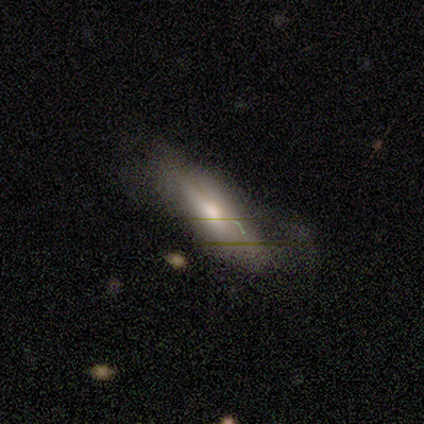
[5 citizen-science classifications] A smooth galaxy with no disk features (40%, tied with star or artifact) that is in between round and cigar-shaped (50%, tied with cigar-shaped).

Vote fractions:
- Smooth or featured? smooth: 40% (tied) / star or artifact: 40% (tied) / featured or disk: 20%
- How rounded? in between: 50% (tied) / cigar-shaped: 50% (tied) / round: 0%
- Merging? minor disturbance: 67% / none: 33% / major disturbance: 0% / merger: 0%